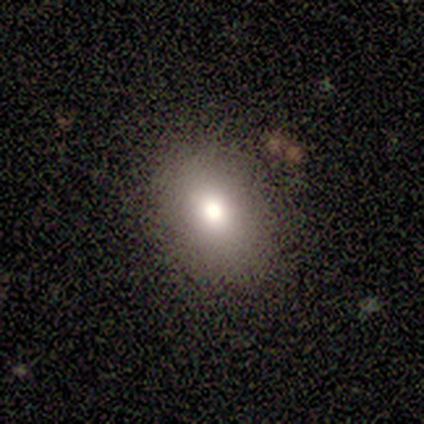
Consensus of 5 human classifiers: This appears to be a smooth galaxy with no disk features (80%) that is round (50%, tied with in between). Merging: none (100%).